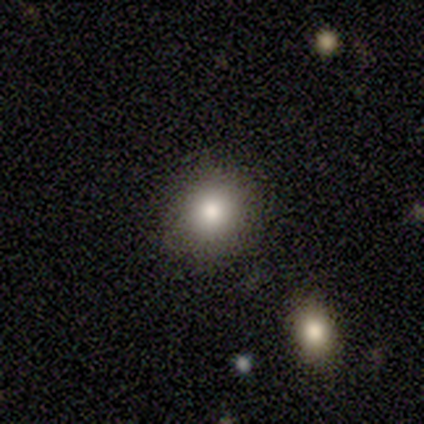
This appears to be a smooth galaxy with no disk features (100%) that is round (100%). Merging: none (80%).